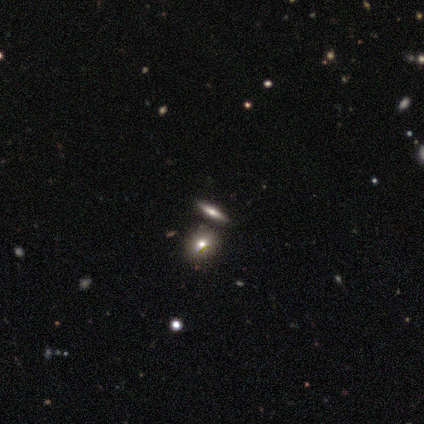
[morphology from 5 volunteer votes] Q: Smooth or featured?
A: smooth (60%); runner-up: featured or disk (20%)
Q: How rounded?
A: round (67%); runner-up: cigar-shaped (33%)
Q: Merging?
A: none (75%); runner-up: merger (25%)